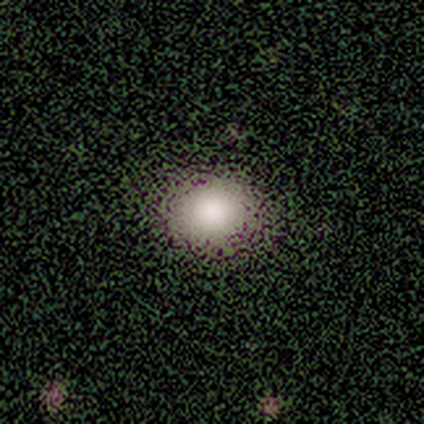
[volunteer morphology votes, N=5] This appears to be a smooth galaxy with no disk features (60%) that is round (67%). Merging: none (100%).